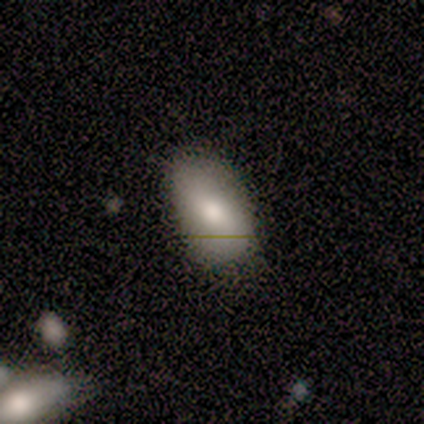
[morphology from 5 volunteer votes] This appears to be a smooth galaxy with no disk features (80%) that is in between round and cigar-shaped (100%). Merging: none (100%).